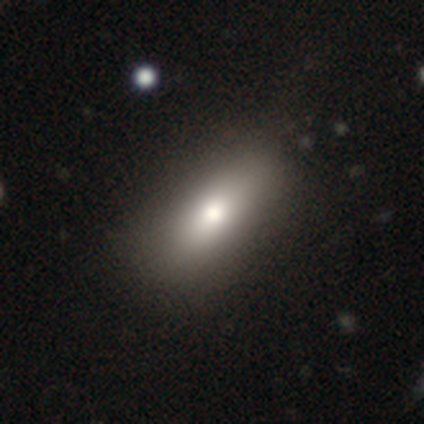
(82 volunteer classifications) Overall: smooth (83%). How rounded: in between (76%). Merging: none (71%).